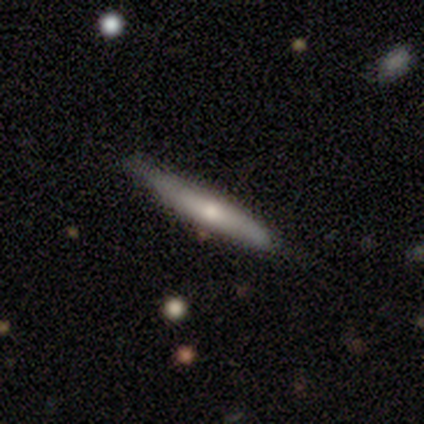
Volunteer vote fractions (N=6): Smooth or featured: featured or disk — 67% (smooth — 33%)
Edge-on disk: yes — 75% (no — 25%)
Edge-on bulge: rounded — 100%
Merging: none — 50% (tied with minor disturbance — 50%)